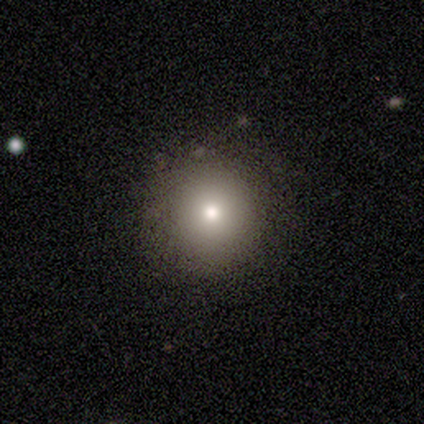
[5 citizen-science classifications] Morphology: type=smooth (80%); roundness=round (100%); merging=none (100%).